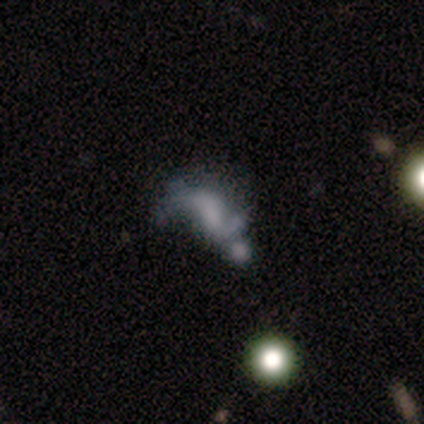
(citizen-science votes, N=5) A featured or disk galaxy (40%, tied with star or artifact) with a strong bar (50%, tied with no), 2 (100%) loose (100%) spiral arms (50%, tied with no) and no central bulge (100%). Merging: merger (100%).